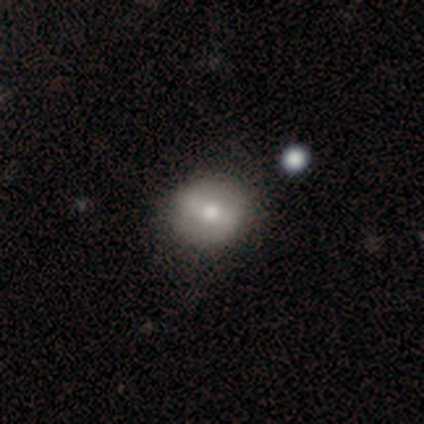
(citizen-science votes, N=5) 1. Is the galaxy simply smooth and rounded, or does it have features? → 60% smooth, 40% featured or disk, 0% star or artifact.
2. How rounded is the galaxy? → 100% round, 0% in between, 0% cigar-shaped.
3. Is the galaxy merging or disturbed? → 100% none, 0% minor disturbance, 0% major disturbance, 0% merger.